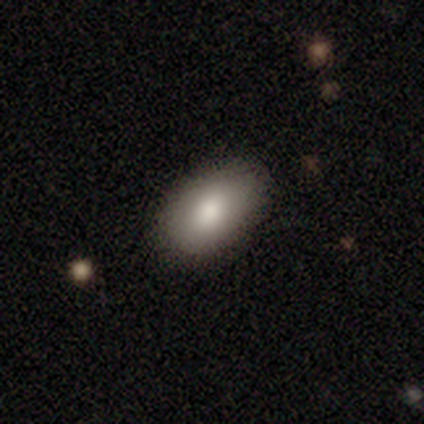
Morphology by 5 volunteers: Smooth or featured? 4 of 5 (80%) said smooth. How rounded? 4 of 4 (100%) said in between. Merging? 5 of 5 (100%) said none.